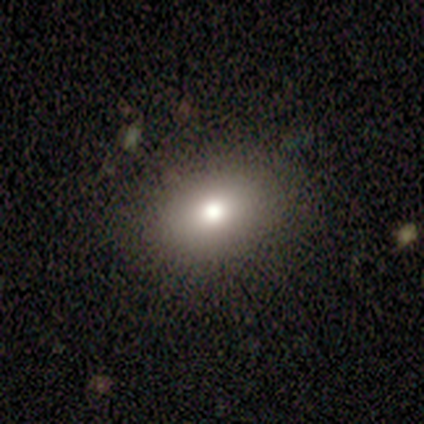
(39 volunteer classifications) A smooth galaxy with no disk features (79%) that is in between round and cigar-shaped (74%).

Vote fractions:
- Smooth or featured? smooth: 79% / featured or disk: 13% / star or artifact: 8%
- How rounded? in between: 74% / round: 26% / cigar-shaped: 0%
- Merging? none: 89% / minor disturbance: 6% / major disturbance: 6% / merger: 0%